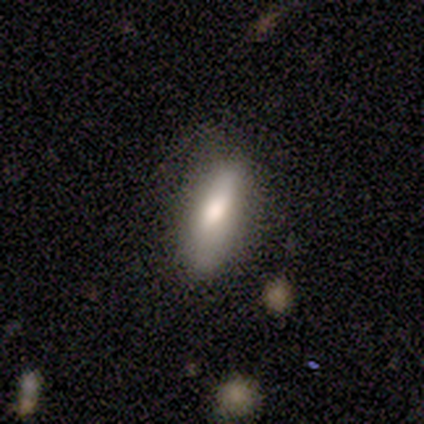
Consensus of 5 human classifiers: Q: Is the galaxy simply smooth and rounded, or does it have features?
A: smooth — 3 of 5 (60%).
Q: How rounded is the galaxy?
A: cigar-shaped — 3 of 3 (100%).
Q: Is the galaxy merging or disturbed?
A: minor disturbance — 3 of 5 (60%).